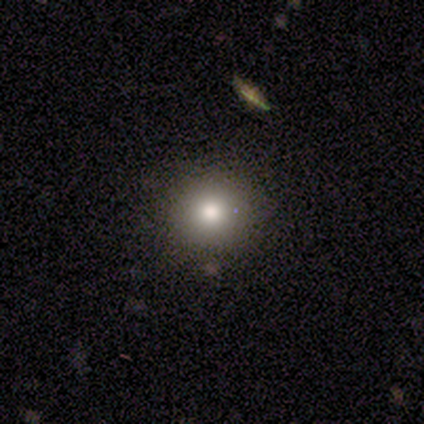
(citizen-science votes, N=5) Smooth or featured? 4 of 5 (80%) said smooth. How rounded? 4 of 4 (100%) said round. Merging? 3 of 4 (75%) said none.